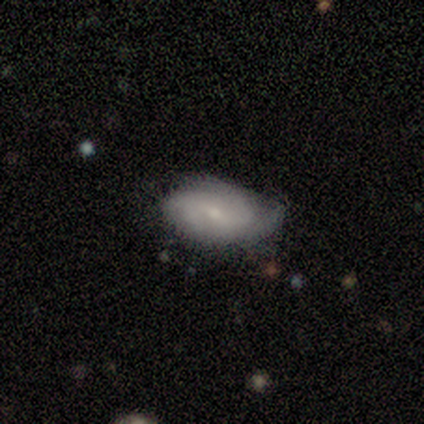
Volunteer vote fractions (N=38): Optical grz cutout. It shows a featured or disk galaxy (66%) with a weak bar (56%), 2 (35%) tight (57%) spiral arms (92%) and a small central bulge (72%). Merging: none (54%).